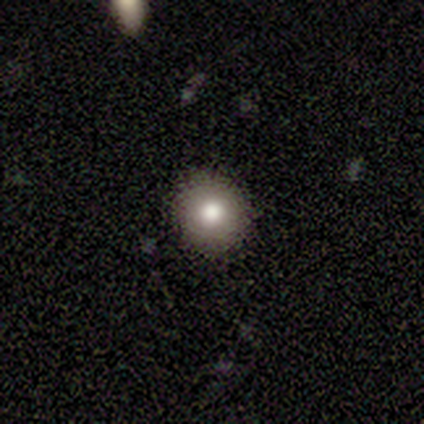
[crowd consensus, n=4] A smooth galaxy with no disk features (75%) that is round (100%). Merging: none (100%).